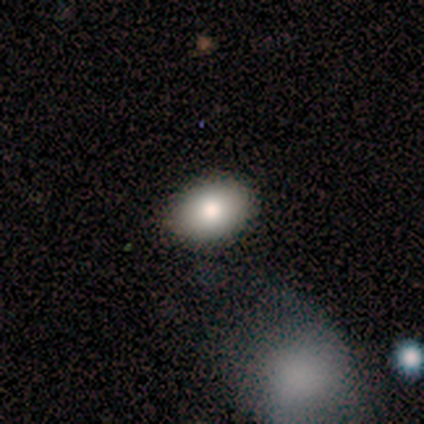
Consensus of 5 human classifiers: smooth 80%, featured or disk 20%, star or artifact 0%. Down the decision tree: how rounded — round (50%, tied with in between); merging — none (100%).